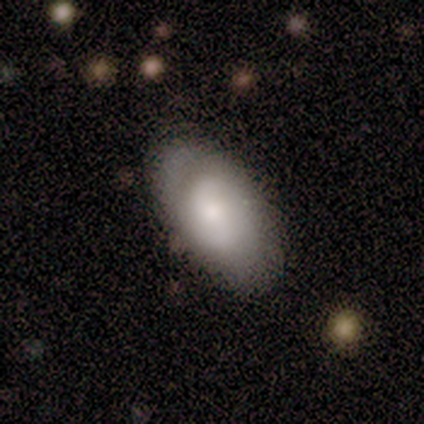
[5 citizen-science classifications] Volunteers were most divided on "spiral winding" (2-way tie): medium: 50%, loose: 50%, tight: 0%. More confident: edge-on disk — no (100%); bar — no (100%); spiral arm count — 2 (100%); merging — none (80%); spiral arms — yes (67%); bulge size — moderate (67%); smooth or featured — featured or disk (60%).